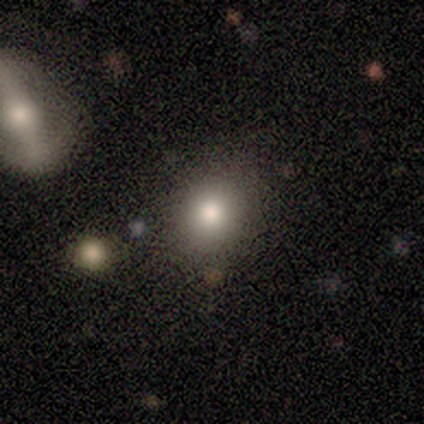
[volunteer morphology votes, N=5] smooth 80%, featured or disk 20%, star or artifact 0%. Down the decision tree: how rounded — round (75%); merging — none (80%).